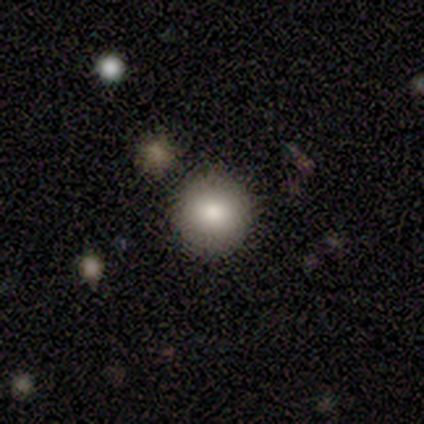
smooth_or_featured: smooth (p=0.80) [alt: featured or disk p=0.20]
how_rounded: round (p=1.00)
merging: none (p=0.80) [alt: merger p=0.20]